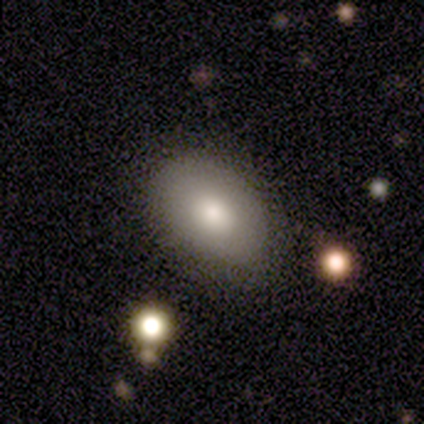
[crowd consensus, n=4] A smooth galaxy with no disk features (75%) that is in between round and cigar-shaped (100%). Merging: none (67%).